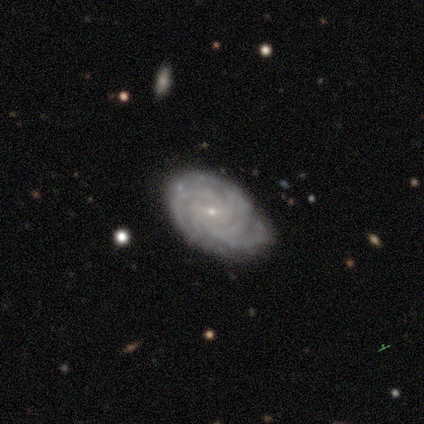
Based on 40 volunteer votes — smooth_or_featured: featured or disk (p=0.90) [alt: smooth p=0.07]
disk_edge_on: no (p=1.00)
bar: no (p=0.53) [alt: weak p=0.42]
has_spiral_arms: yes (p=0.97) [alt: no p=0.03]
spiral_winding: tight (p=0.74) [alt: medium p=0.26]
spiral_arm_count: can't tell (p=0.34) [alt: more than 4 p=0.31]
bulge_size: small (p=0.89) [alt: moderate p=0.11]
merging: none (p=0.85) [alt: minor disturbance p=0.13]